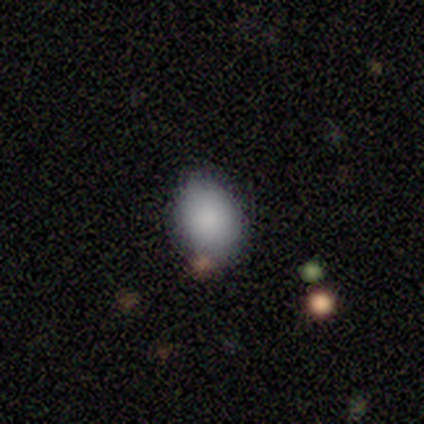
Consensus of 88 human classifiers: Overall: smooth (78%). How rounded: in between (62%; round 38%). Merging: none (72%).